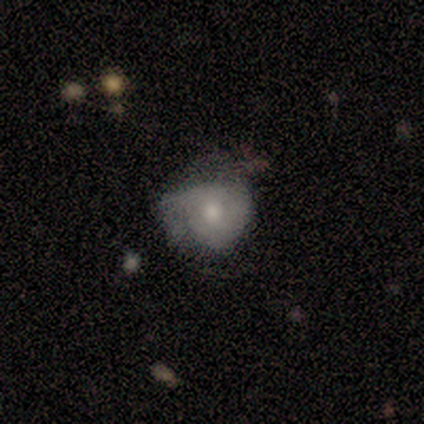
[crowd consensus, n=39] smooth 56%, featured or disk 41%, star or artifact 3%. Down the decision tree: how rounded — round (77%); merging — minor disturbance (47%).